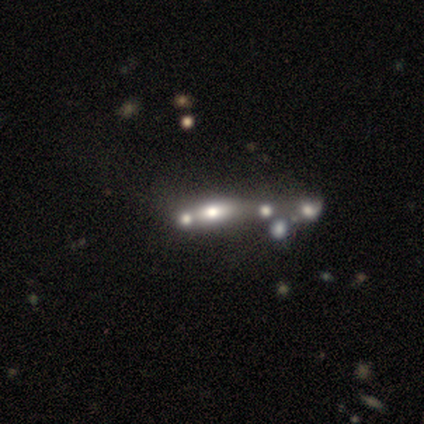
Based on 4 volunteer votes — Smooth or featured: smooth — 50% (tied with featured or disk — 50%)
How rounded: cigar-shaped — 100%
Merging: merger — 75% (none — 25%)